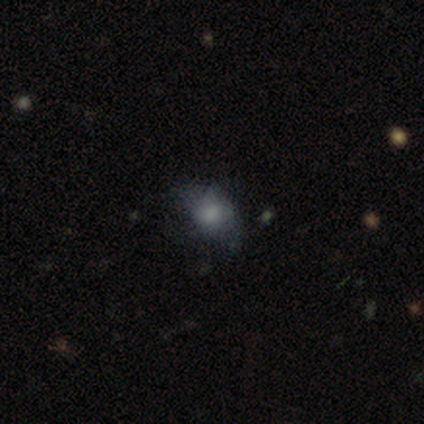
A smooth galaxy with no disk features (76%) that is in between round and cigar-shaped (61%).

Vote fractions:
- Smooth or featured? smooth: 76% / star or artifact: 14% / featured or disk: 11%
- How rounded? in between: 61% / round: 36% / cigar-shaped: 4%
- Merging? major disturbance: 38% / none: 34% / minor disturbance: 25% / merger: 3%